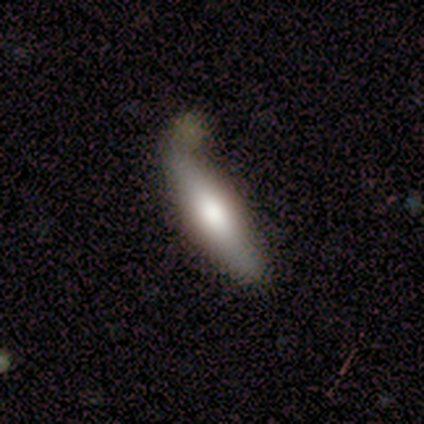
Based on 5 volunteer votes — smooth 60%, featured or disk 20%, star or artifact 20%. Down the decision tree: how rounded — cigar-shaped (100%); merging — none (100%).